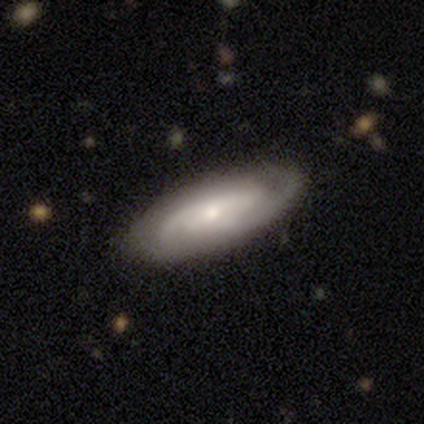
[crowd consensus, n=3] Volunteers were most divided on "bar" (2-way tie): weak: 50%, no: 50%, strong: 0%; "bulge size" (2-way tie): moderate: 50%, small: 50%, dominant: 0%, large: 0%, none: 0%. More confident: edge-on disk — no (100%); spiral arms — yes (100%); spiral winding — medium (100%); spiral arm count — 2 (100%); smooth or featured — featured or disk (67%); merging — minor disturbance (67%).